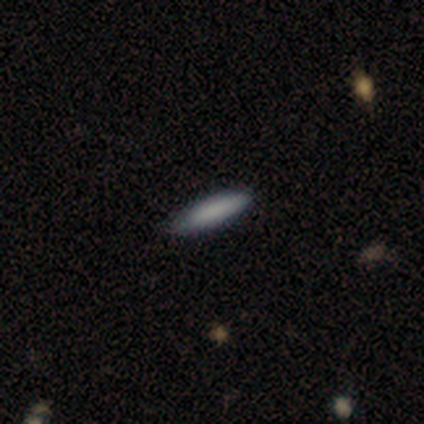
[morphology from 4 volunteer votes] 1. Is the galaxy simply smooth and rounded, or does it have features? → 75% smooth, 25% featured or disk, 0% star or artifact.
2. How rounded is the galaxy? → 100% cigar-shaped, 0% round, 0% in between.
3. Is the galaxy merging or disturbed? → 75% none, 25% minor disturbance, 0% major disturbance, 0% merger.